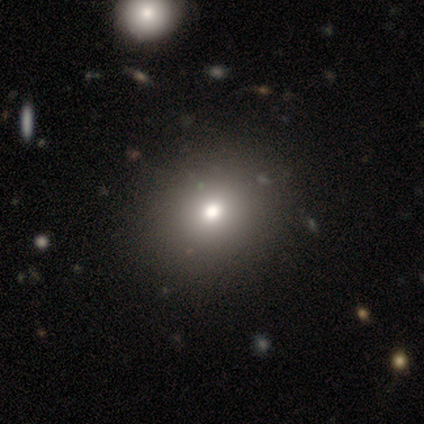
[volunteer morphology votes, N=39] smooth 69%, star or artifact 18%, featured or disk 13%. Down the decision tree: how rounded — round (81%); merging — none (72%).